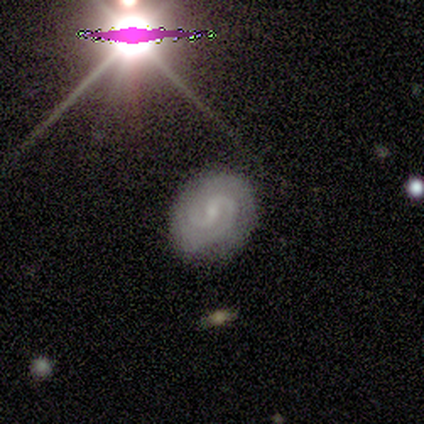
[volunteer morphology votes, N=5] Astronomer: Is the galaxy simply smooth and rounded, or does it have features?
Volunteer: featured or disk — 100%.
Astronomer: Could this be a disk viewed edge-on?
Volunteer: no — 100%.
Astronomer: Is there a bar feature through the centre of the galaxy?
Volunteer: weak — 40%, tied with no at 40%.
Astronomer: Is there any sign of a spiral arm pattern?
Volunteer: yes — 100%.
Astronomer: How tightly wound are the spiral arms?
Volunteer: tight — 40%, tied with loose at 40%.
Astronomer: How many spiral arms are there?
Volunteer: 2 — 80%.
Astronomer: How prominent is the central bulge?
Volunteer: small — 100%.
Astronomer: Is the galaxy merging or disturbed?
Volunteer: none — 100%.